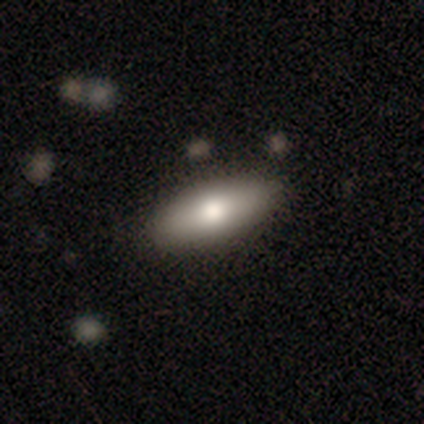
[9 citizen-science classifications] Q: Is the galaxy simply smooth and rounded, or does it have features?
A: smooth — 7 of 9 (78%).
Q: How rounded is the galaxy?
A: in between — 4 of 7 (57%).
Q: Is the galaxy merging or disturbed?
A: none — 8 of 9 (89%).